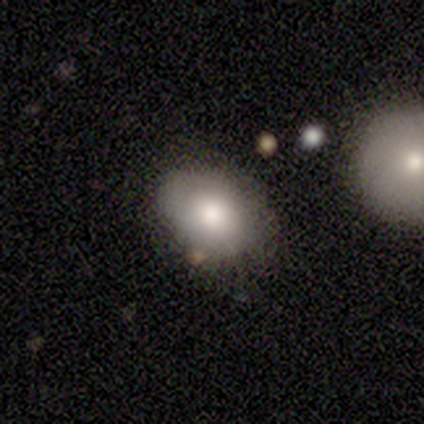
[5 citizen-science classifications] Smooth or featured? 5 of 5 (100%) said smooth. How rounded? 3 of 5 (60%) said in between. Merging? 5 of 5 (100%) said none.